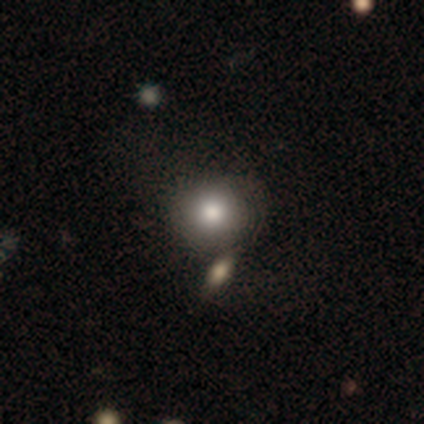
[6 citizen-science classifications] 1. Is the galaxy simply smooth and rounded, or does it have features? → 100% smooth, 0% featured or disk, 0% star or artifact.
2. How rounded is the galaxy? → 83% round, 17% in between, 0% cigar-shaped.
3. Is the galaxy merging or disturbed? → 50% none, 33% merger, 17% minor disturbance, 0% major disturbance.